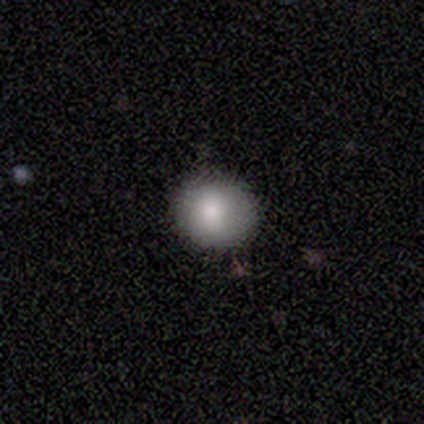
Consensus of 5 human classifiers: Overall: smooth (100%). How rounded: round (100%). Merging: none (80%).